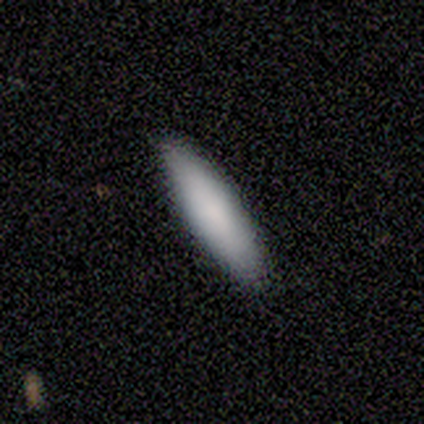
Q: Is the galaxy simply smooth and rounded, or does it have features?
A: smooth — 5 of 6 (83%).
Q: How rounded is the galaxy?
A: cigar-shaped — 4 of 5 (80%).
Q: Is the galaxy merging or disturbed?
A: none — 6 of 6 (100%).